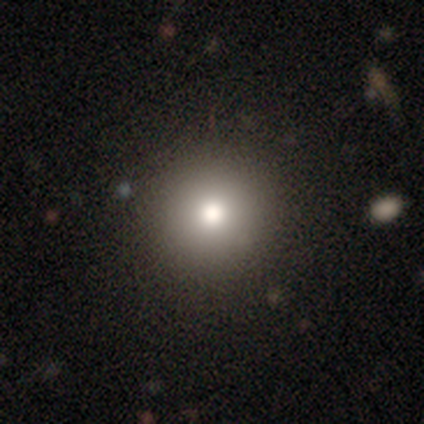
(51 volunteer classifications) Smooth or featured: smooth — 82% (star or artifact — 14%)
How rounded: round — 95% (in between — 5%)
Merging: none — 89% (minor disturbance — 9%)